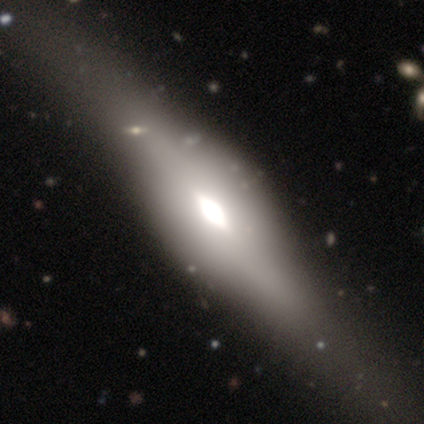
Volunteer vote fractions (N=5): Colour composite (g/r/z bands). It shows a featured or disk galaxy (80%) viewed edge-on (100%) with a rounded central bulge (100%). Merging: none (100%).